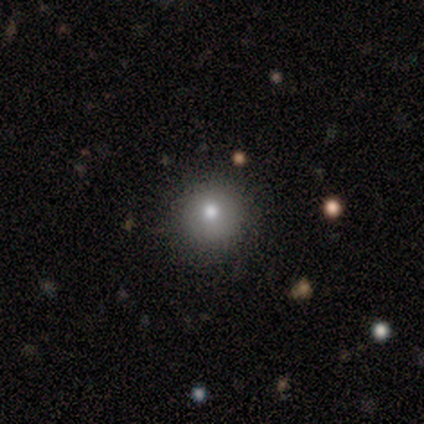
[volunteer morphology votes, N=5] A smooth galaxy with no disk features (100%) that is round (80%).

Vote fractions:
- Smooth or featured? smooth: 100% / featured or disk: 0% / star or artifact: 0%
- How rounded? round: 80% / cigar-shaped: 20% / in between: 0%
- Merging? none: 100% / minor disturbance: 0% / major disturbance: 0% / merger: 0%